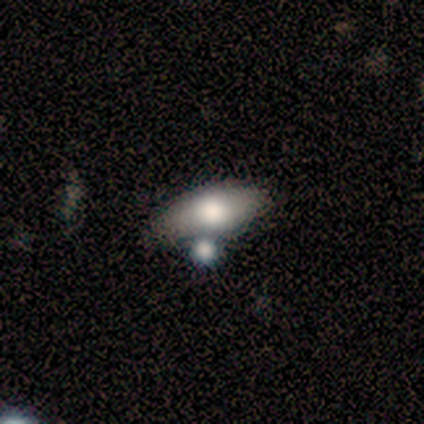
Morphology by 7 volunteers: smooth-or-featured: featured or disk: 57% | smooth: 29% | star or artifact: 14%
  disk-edge-on: no: 75% | yes: 25%
    bar: strong: 67% | no: 33% | weak: 0%
    has-spiral-arms: no: 67% | yes: 33%
    bulge-size: large: 33% (tied) | moderate: 33% (tied) | small: 33% (tied) | dominant: 0% | none: 0%
  merging: minor disturbance: 33% (tied) | merger: 33% (tied) | none: 17% | major disturbance: 17%